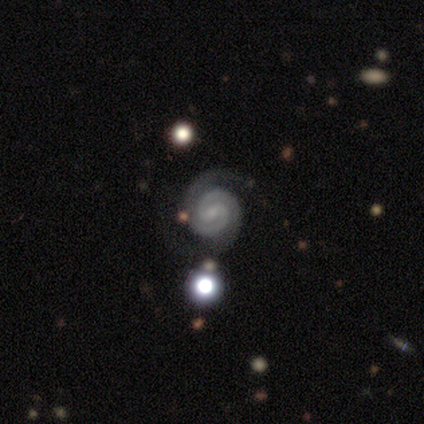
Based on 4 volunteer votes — Volunteers were most divided on "bar": strong: 75%, weak: 25%, no: 0%. More confident: smooth or featured — featured or disk (100%); edge-on disk — no (100%); spiral arms — yes (100%); spiral winding — tight (100%); spiral arm count — 2 (100%); bulge size — small (75%); merging — minor disturbance (75%).